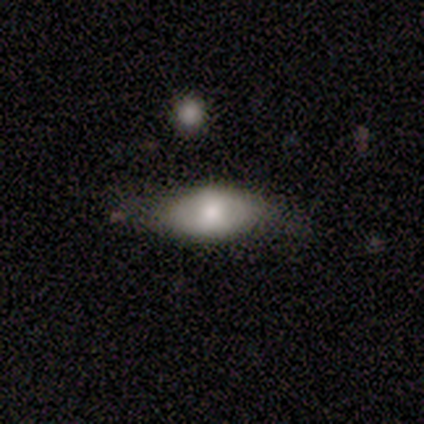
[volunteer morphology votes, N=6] A smooth galaxy with no disk features (100%) that is in between round and cigar-shaped (100%). Merging: none (50%).